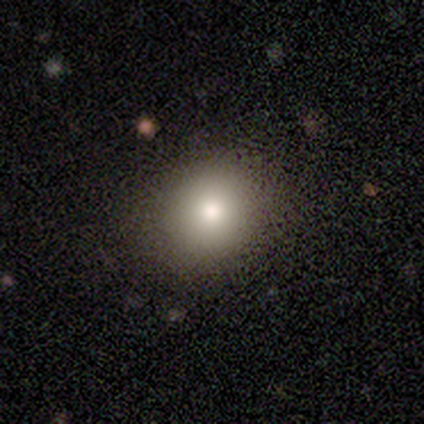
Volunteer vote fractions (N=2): Q: Smooth or featured?
A: smooth (50%); tied with: star or artifact (50%)
Q: How rounded?
A: round (100%)
Q: Merging?
A: none (100%)